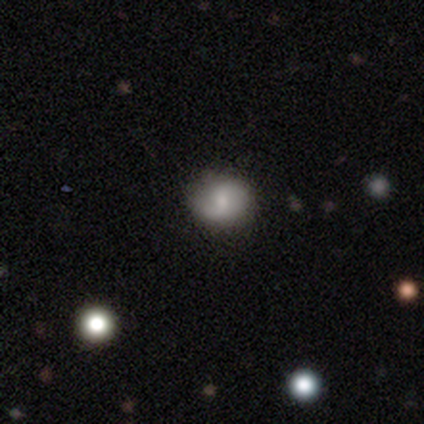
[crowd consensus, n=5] Smooth or featured? 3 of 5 (60%) said smooth. How rounded? 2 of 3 (67%) said round. Merging? 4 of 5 (80%) said none.